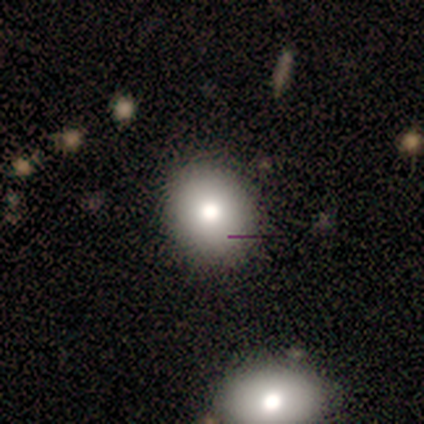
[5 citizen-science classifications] Morphology: type=smooth (80%); roundness=round (50%, tied with in between); merging=none (100%).